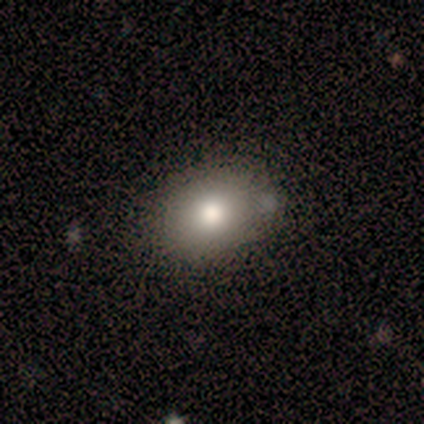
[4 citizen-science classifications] Volunteers were most divided on "smooth or featured" (2-way tie): smooth: 50%, featured or disk: 50%, star or artifact: 0%; "how rounded" (2-way tie): round: 50%, in between: 50%, cigar-shaped: 0%. More confident: merging — none (75%).